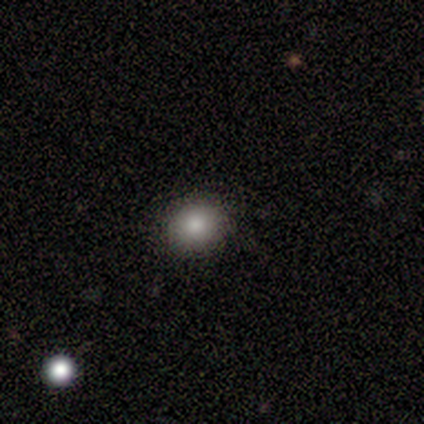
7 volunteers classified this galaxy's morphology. Volunteers were most divided on "smooth or featured": smooth: 71%, featured or disk: 14%, star or artifact: 14%. More confident: merging — none (83%); how rounded — round (80%).